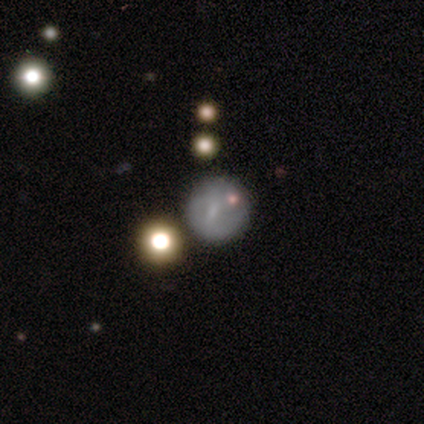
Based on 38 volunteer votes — This is possibly a smooth galaxy (53%). How rounded: clearly round (90%). Merging: likely none (66%).